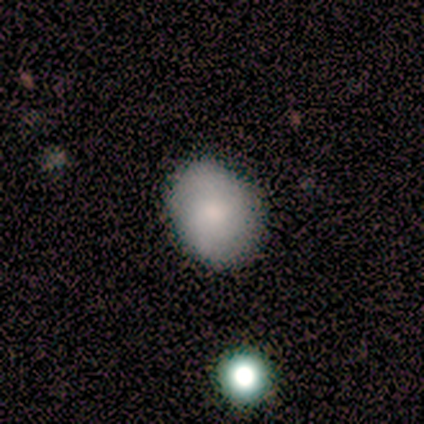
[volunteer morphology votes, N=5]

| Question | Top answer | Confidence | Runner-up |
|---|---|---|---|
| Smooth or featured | smooth | 40% | tied: featured or disk (40%) |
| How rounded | in between | 100% | — |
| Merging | none | 75% | minor disturbance (25%) |